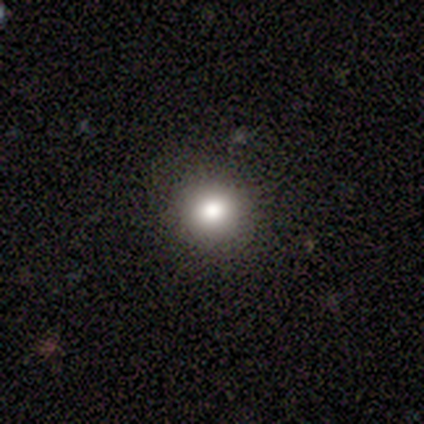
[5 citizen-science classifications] This appears to be a smooth galaxy with no disk features (60%) that is round (100%). Merging: none (100%).